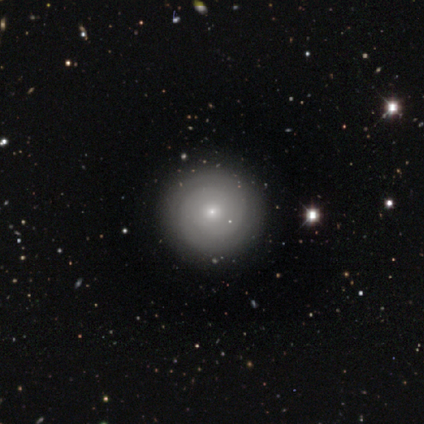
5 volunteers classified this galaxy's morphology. This appears to be a featured or disk galaxy (100%) with no bar (60%), 2 (100%) tight (100%) spiral arms (80%) and a small central bulge (100%). Merging: none (100%).